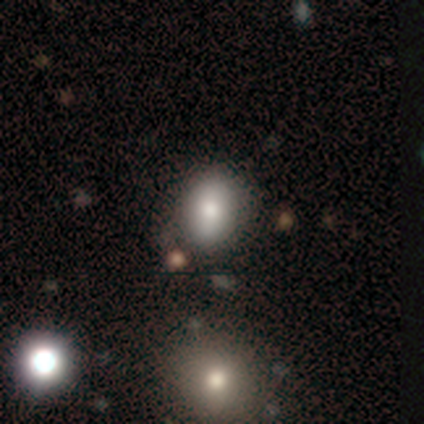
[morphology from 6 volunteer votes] Q: Smooth or featured?
A: smooth (83%); runner-up: star or artifact (17%)
Q: How rounded?
A: in between (100%)
Q: Merging?
A: none (80%); runner-up: minor disturbance (20%)